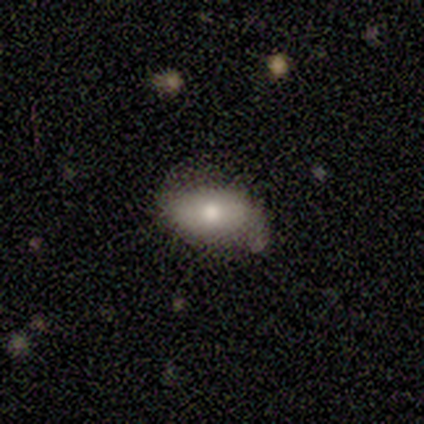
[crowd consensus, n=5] smooth 80%, featured or disk 20%, star or artifact 0%. Down the decision tree: how rounded — in between (100%); merging — none (60%).